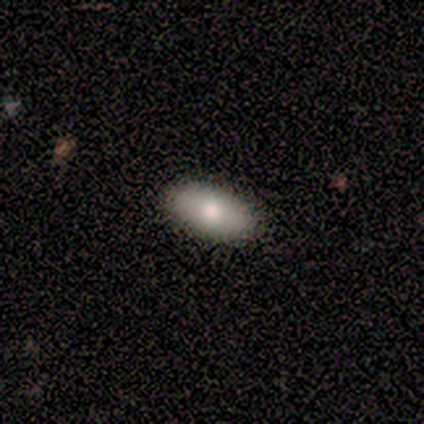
Q: Smooth or featured?
A: smooth (100%)
Q: How rounded?
A: in between (100%)
Q: Merging?
A: none (80%); runner-up: minor disturbance (20%)